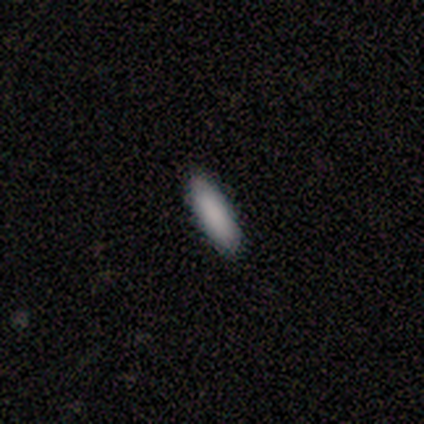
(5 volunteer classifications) smooth 100%, featured or disk 0%, star or artifact 0%. Down the decision tree: how rounded — in between (60%); merging — none (100%).